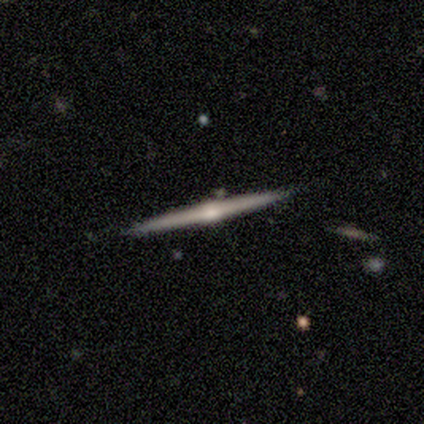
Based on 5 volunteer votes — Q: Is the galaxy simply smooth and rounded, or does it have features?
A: smooth — 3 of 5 (60%).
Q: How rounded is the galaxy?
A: cigar-shaped — 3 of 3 (100%).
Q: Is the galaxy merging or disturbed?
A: none — 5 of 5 (100%).